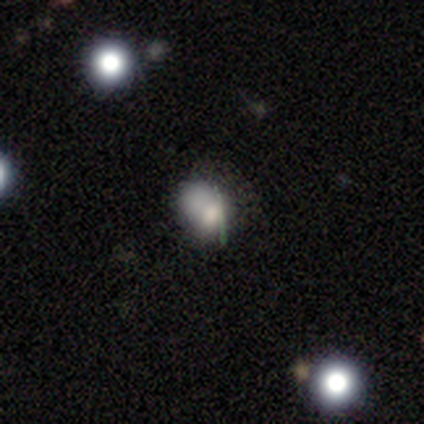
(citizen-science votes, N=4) smooth_or_featured: smooth (p=0.50) [alt: featured or disk p=0.25]
how_rounded: in between (p=1.00)
merging: merger (p=0.67) [alt: major disturbance p=0.33]